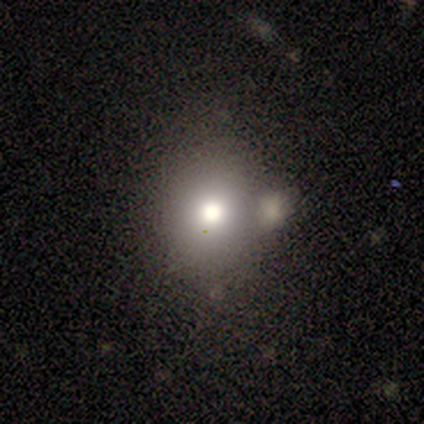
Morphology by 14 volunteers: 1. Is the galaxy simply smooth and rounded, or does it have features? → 43% featured or disk, 36% smooth, 21% star or artifact.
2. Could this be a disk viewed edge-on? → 100% no, 0% yes.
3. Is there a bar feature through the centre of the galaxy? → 100% no, 0% strong, 0% weak.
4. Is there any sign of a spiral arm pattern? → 100% no, 0% yes.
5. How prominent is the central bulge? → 67% moderate, 33% large, 0% dominant, 0% small, 0% none.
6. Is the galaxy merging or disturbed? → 64% none, 27% merger, 9% minor disturbance, 0% major disturbance.